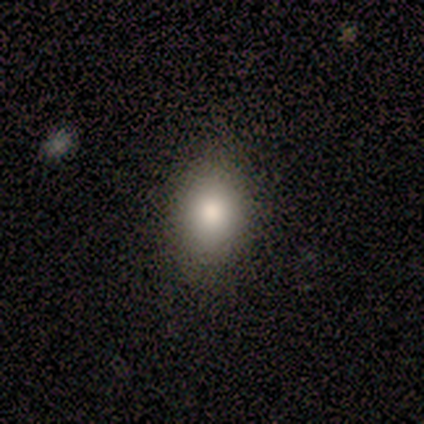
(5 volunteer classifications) Smooth or featured? smooth (80%)
How rounded? in between (100%)
Merging? none (100%)